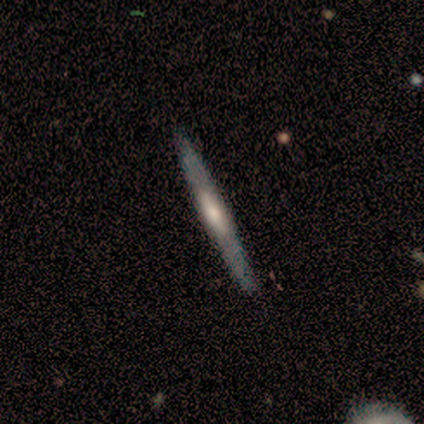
Smooth or featured? 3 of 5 (60%) said featured or disk. Edge-on disk? 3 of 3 (100%) said yes. Edge-on bulge? 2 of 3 (67%) said rounded. Merging? 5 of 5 (100%) said none.